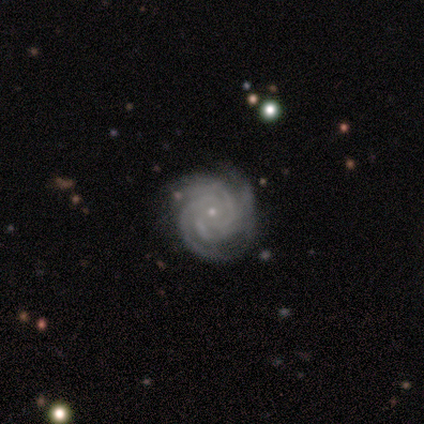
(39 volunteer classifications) Smooth or featured? featured or disk (97%)
Edge-on disk? no (97%)
Bar? no (89%)
Spiral arms? yes (100%)
Spiral winding? tight (68%)
Spiral arm count? 3 (35%)
Bulge size? small (95%)
Merging? none (87%)